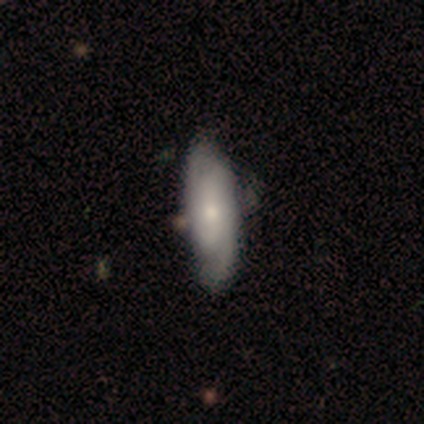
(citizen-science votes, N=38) This appears to be a featured or disk galaxy (61%) with no bar (48%), 2 (86%) medium (52%) spiral arms (91%) and a small central bulge (52%). Merging: none (53%).